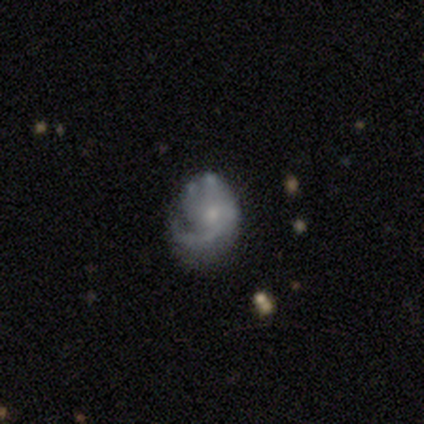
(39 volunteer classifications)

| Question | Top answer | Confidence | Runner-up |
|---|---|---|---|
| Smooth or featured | featured or disk | 56% | smooth (33%) |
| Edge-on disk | no | 100% | — |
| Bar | no | 91% | weak (9%) |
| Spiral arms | yes | 73% | no (27%) |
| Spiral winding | tight | 38% | tied: medium (38%) |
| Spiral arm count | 1 | 69% | can't tell (19%) |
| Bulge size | small | 95% | moderate (5%) |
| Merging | none | 40% | major disturbance (37%) |